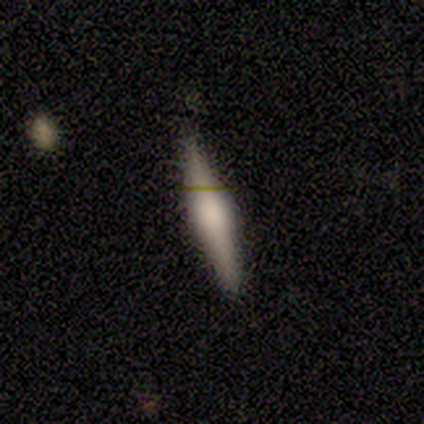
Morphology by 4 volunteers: Q: Smooth or featured?
A: smooth (50%); tied with: featured or disk (50%)
Q: How rounded?
A: cigar-shaped (100%)
Q: Merging?
A: none (75%); runner-up: minor disturbance (25%)